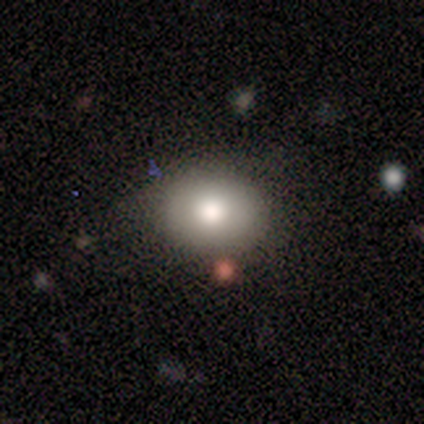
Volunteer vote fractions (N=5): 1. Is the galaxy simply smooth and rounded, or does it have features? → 100% smooth, 0% featured or disk, 0% star or artifact.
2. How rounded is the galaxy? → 60% round, 40% in between, 0% cigar-shaped.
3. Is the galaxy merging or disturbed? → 80% none, 20% minor disturbance, 0% major disturbance, 0% merger.